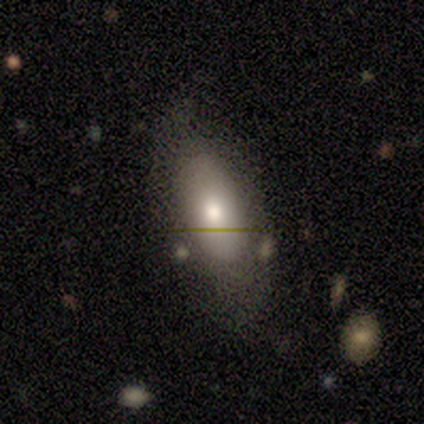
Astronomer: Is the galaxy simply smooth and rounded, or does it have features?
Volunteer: smooth — 100%.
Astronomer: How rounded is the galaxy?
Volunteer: in between — 75%.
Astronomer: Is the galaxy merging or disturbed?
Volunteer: none — 75%.